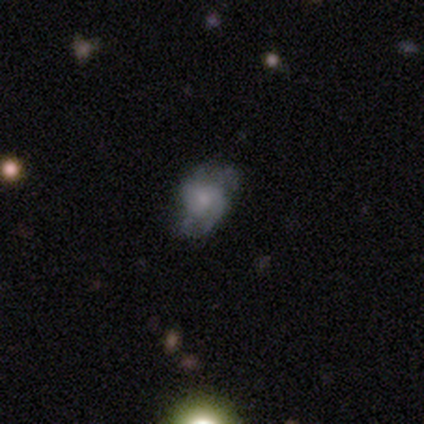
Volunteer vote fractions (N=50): Smooth or featured? featured or disk (60%)
Edge-on disk? no (100%)
Bar? no (70%)
Spiral arms? yes (73%)
Spiral winding? medium (68%)
Spiral arm count? 2 (68%)
Bulge size? small (60%)
Merging? none (55%)